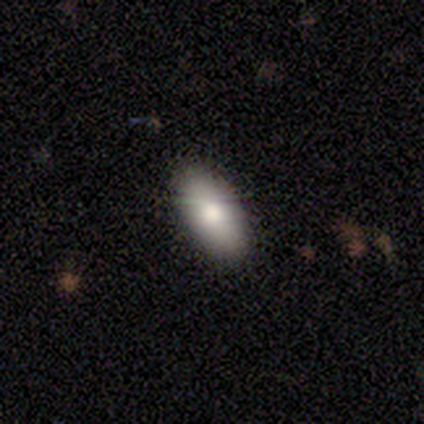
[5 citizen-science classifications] Smooth or featured? smooth (100%)
How rounded? in between (100%)
Merging? none (100%)